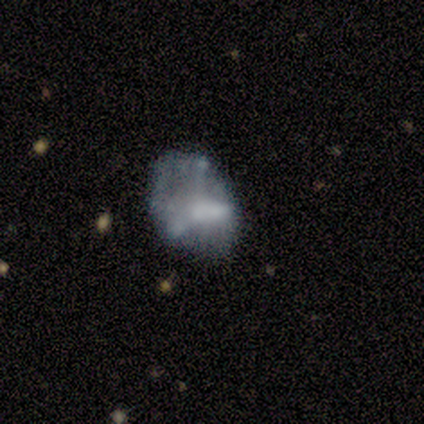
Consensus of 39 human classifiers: Morphology: type=featured or disk (62%); edge-on=no (96%); bar=no (57%); spiral arms=no (74%); bulge=none (43%); merging=major disturbance (38%).